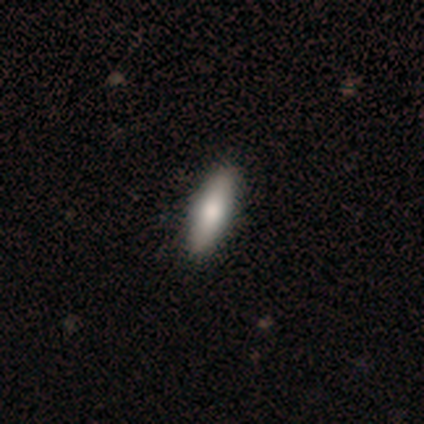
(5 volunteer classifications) A smooth galaxy with no disk features (60%) that is in between round and cigar-shaped (67%).

Vote fractions:
- Smooth or featured? smooth: 60% / featured or disk: 40% / star or artifact: 0%
- How rounded? in between: 67% / cigar-shaped: 33% / round: 0%
- Merging? none: 100% / minor disturbance: 0% / major disturbance: 0% / merger: 0%